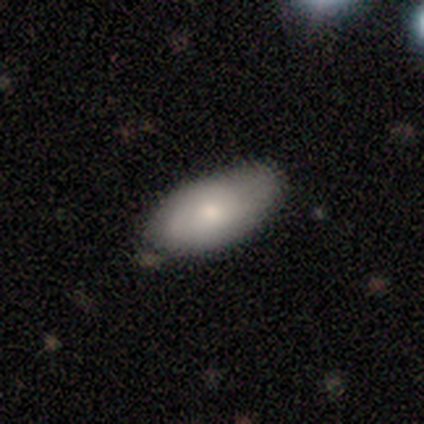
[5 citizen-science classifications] smooth_or_featured: smooth (p=0.40) [tied with: featured or disk p=0.40]
how_rounded: in between (p=1.00)
merging: none (p=0.50) [tied with: minor disturbance p=0.50]